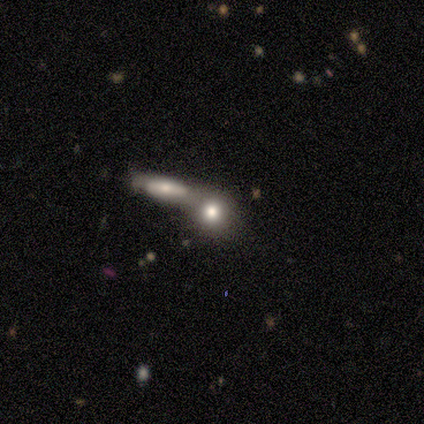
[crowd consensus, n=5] smooth 80%, featured or disk 20%, star or artifact 0%. Down the decision tree: how rounded — in between (50%); merging — merger (80%).